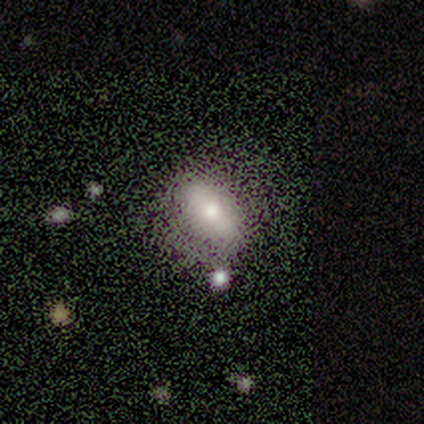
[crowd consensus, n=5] Smooth or featured? smooth (80%)
How rounded? in between (75%)
Merging? none (50%, tied with minor disturbance)